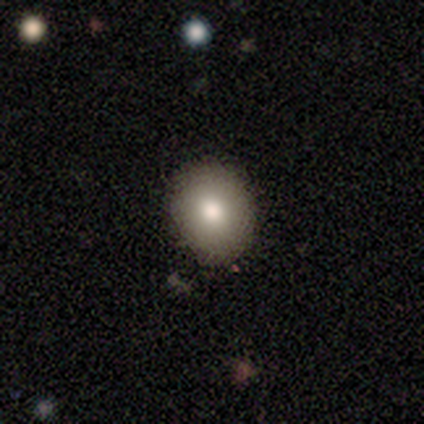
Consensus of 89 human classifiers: Smooth or featured?
  - smooth: 73% *
  - featured or disk: 16%
  - star or artifact: 11%
How rounded?
  - round: 66% *
  - in between: 34%
  - cigar-shaped: 0%
Merging?
  - none: 89% *
  - minor disturbance: 9%
  - major disturbance: 3%
  - merger: 0%